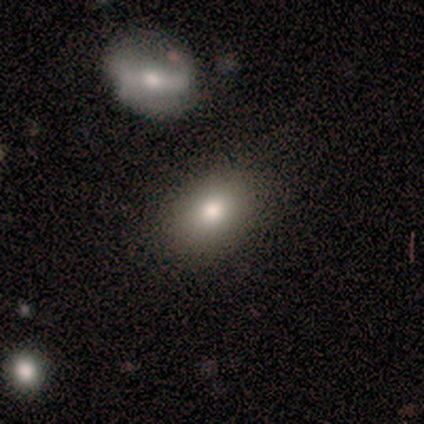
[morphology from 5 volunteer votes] Volunteers were most divided on "smooth or featured": smooth: 80%, featured or disk: 20%, star or artifact: 0%. More confident: how rounded — in between (100%); merging — none (80%).